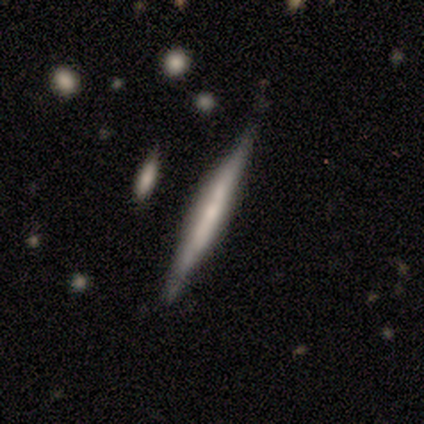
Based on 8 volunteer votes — smooth-or-featured: featured or disk: 62% | smooth: 38% | star or artifact: 0%
  disk-edge-on: yes: 100% | no: 0%
    edge-on-bulge: none: 60% | boxy: 20% | rounded: 20%
  merging: none: 62% | minor disturbance: 38% | major disturbance: 0% | merger: 0%